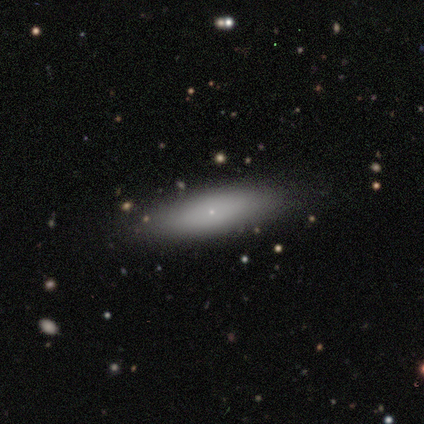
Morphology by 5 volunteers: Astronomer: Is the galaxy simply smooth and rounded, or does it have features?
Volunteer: smooth — 60% (runner-up: featured or disk, 40%).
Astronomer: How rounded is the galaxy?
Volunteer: in between — 67%.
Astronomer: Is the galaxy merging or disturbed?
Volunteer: none — 100%.